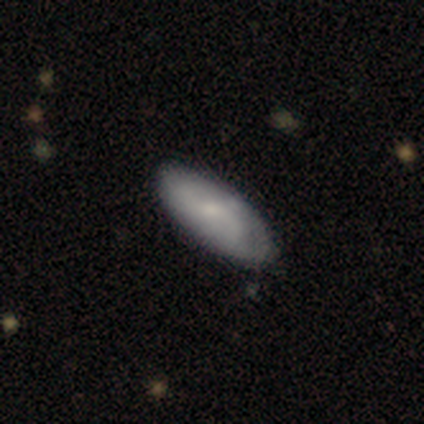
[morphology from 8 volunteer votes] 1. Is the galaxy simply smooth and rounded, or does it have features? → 62% smooth, 38% featured or disk, 0% star or artifact.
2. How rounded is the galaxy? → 60% in between, 40% cigar-shaped, 0% round.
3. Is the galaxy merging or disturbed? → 62% none, 25% minor disturbance, 12% major disturbance, 0% merger.